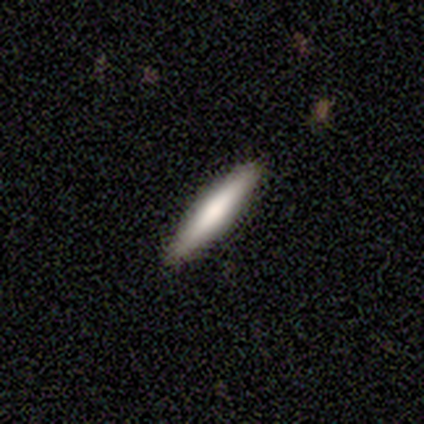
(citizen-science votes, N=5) Morphology: type=smooth (80%); roundness=cigar-shaped (100%); merging=none (100%).